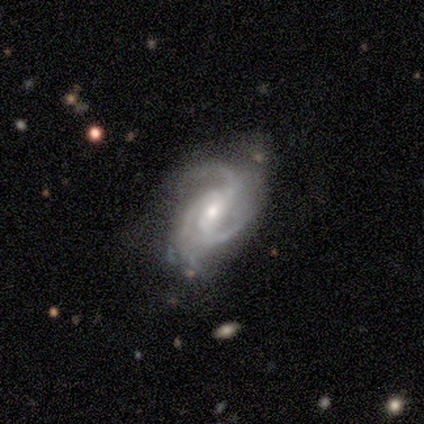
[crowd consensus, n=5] Smooth or featured? featured or disk (80%)
Edge-on disk? no (100%)
Bar? weak (50%, tied with no)
Spiral arms? yes (100%)
Spiral winding? tight (50%, tied with medium)
Spiral arm count? 3 (100%)
Bulge size? moderate (75%)
Merging? none (60%)